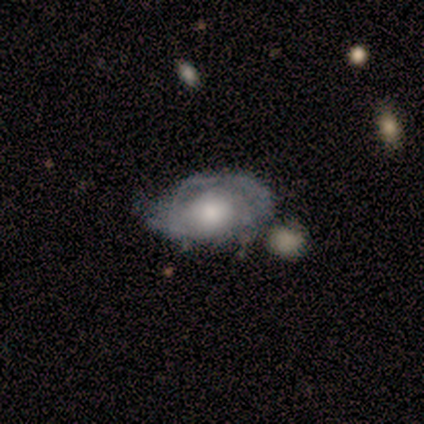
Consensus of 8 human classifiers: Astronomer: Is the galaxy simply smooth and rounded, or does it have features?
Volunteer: featured or disk — 62%.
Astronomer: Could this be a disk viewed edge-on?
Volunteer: no — 100%.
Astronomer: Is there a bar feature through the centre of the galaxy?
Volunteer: no — 100%.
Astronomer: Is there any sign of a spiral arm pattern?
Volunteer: yes — 80%.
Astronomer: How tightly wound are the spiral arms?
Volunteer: tight — 75%.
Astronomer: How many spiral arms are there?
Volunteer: can't tell — 50%.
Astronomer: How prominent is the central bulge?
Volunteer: moderate — 40%, tied with small at 40%.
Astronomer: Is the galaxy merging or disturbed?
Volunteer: none — 62%.